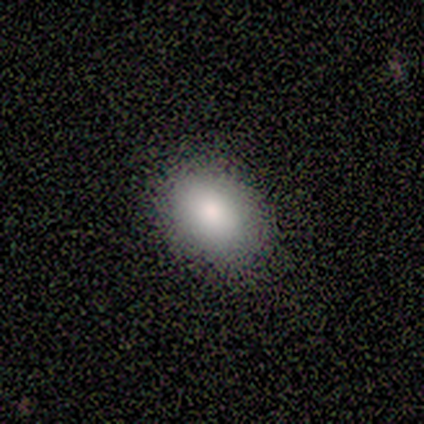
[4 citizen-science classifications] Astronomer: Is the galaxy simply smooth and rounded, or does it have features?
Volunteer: smooth — 100%.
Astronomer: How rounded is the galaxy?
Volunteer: in between — 100%.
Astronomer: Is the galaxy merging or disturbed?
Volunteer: none — 100%.